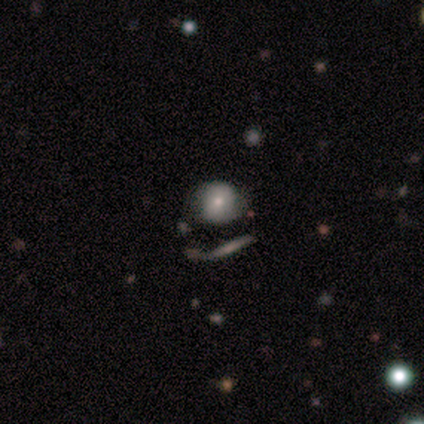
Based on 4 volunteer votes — A smooth galaxy with no disk features (75%) that is round (67%).

Vote fractions:
- Smooth or featured? smooth: 75% / star or artifact: 25% / featured or disk: 0%
- How rounded? round: 67% / in between: 33% / cigar-shaped: 0%
- Merging? none: 67% / merger: 33% / minor disturbance: 0% / major disturbance: 0%